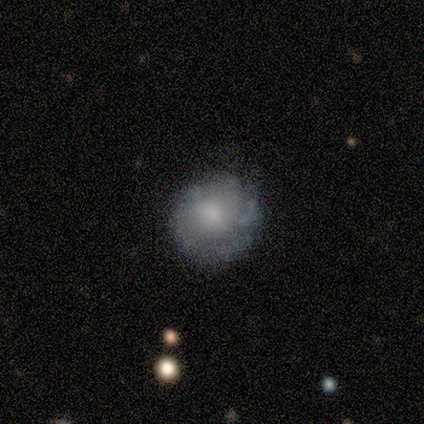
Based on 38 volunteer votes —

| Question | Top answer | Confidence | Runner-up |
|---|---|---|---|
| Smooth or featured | featured or disk | 68% | smooth (26%) |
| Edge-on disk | no | 100% | — |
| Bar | no | 46% | weak (42%) |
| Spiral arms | yes | 77% | no (23%) |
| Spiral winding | tight | 45% | medium (30%) |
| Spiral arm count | can't tell | 45% | 2 (20%) |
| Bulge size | small | 38% | moderate (31%) |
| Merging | none | 47% | minor disturbance (42%) |